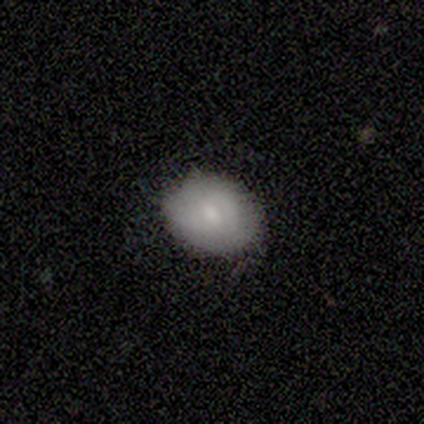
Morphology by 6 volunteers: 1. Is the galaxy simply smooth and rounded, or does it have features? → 83% smooth, 17% star or artifact, 0% featured or disk.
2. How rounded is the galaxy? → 60% round, 40% in between, 0% cigar-shaped.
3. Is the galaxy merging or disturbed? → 80% none, 20% minor disturbance, 0% major disturbance, 0% merger.